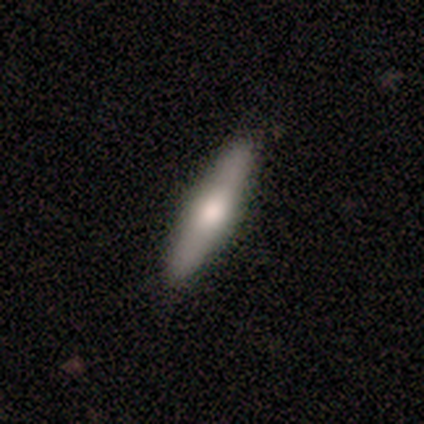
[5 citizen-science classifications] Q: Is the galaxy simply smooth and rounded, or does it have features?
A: featured or disk — 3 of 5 (60%).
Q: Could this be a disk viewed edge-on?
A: yes — 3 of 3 (100%).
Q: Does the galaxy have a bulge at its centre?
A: rounded — 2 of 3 (67%).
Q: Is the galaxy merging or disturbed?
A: none — 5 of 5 (100%).